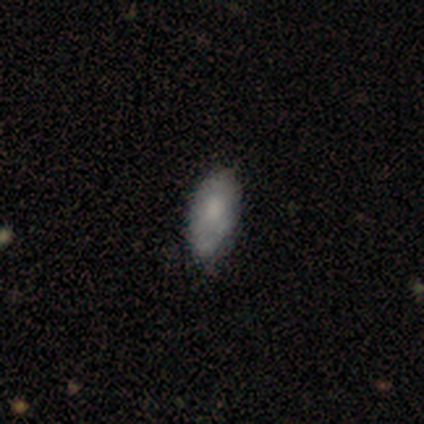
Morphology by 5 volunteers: smooth_or_featured: smooth (p=0.80) [alt: featured or disk p=0.20]
how_rounded: in between (p=1.00)
merging: none (p=0.60) [alt: minor disturbance p=0.40]